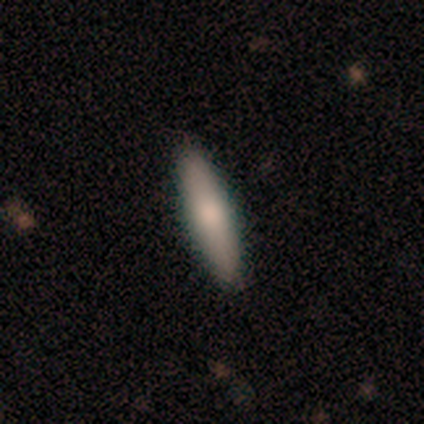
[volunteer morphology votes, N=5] smooth 80%, featured or disk 20%, star or artifact 0%. Down the decision tree: how rounded — cigar-shaped (100%); merging — none (100%).